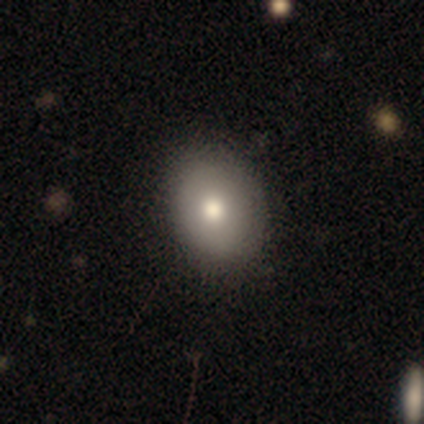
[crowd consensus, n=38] smooth 84%, star or artifact 11%, featured or disk 5%. Down the decision tree: how rounded — in between (66%); merging — none (68%).